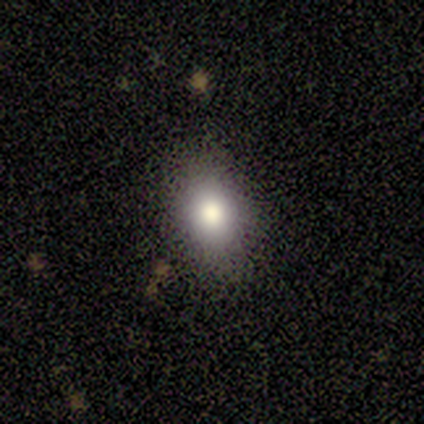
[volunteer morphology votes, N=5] This is clearly a smooth galaxy (80%). How rounded: likely in between (75%). Merging: clearly none (100%).